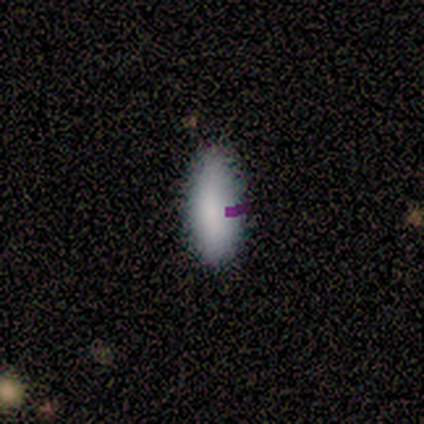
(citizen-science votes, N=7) Smooth or featured? 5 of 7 (71%) said smooth. How rounded? 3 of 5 (60%) said cigar-shaped. Merging? 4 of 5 (80%) said none.